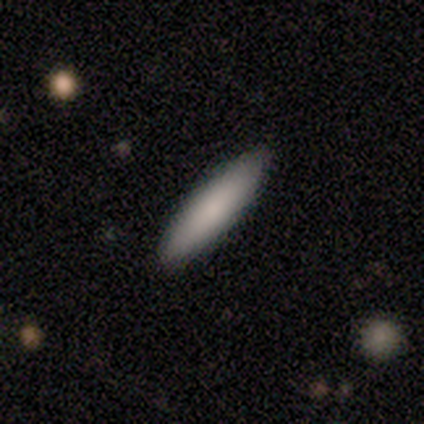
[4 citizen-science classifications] This is likely a smooth galaxy (75%). How rounded: likely cigar-shaped (67%). Merging: clearly none (100%).